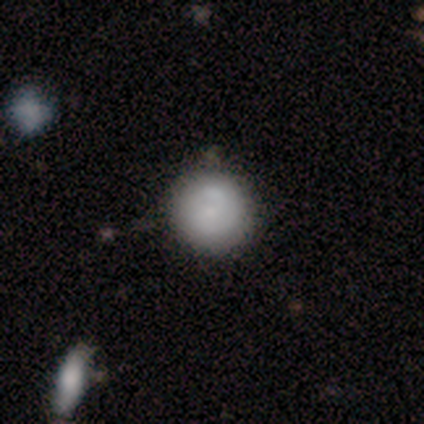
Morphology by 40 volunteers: A smooth galaxy with no disk features (55%) that is round (95%).

Vote fractions:
- Smooth or featured? smooth: 55% / featured or disk: 38% / star or artifact: 8%
- How rounded? round: 95% / in between: 5% / cigar-shaped: 0%
- Merging? none: 70% / minor disturbance: 8% / merger: 8% / major disturbance: 3%